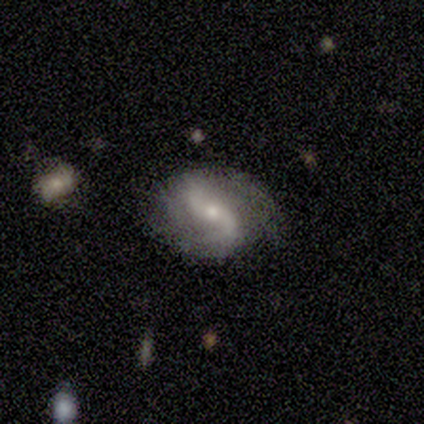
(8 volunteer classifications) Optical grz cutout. It shows a featured or disk galaxy (62%) with a weak bar (40%, tied with no), 2 (80%) loose (100%) spiral arms (100%) and a small central bulge (60%). Merging: none (57%).